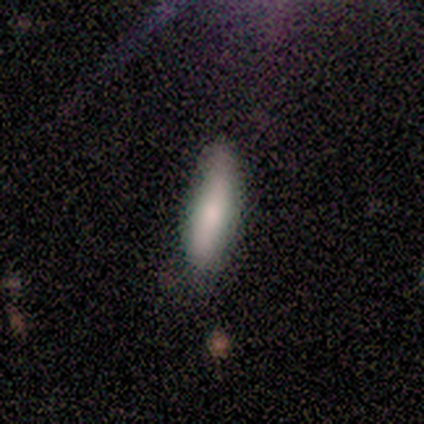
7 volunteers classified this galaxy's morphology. A smooth galaxy with no disk features (71%) that is cigar-shaped (80%). Merging: none (43%, tied with minor disturbance).